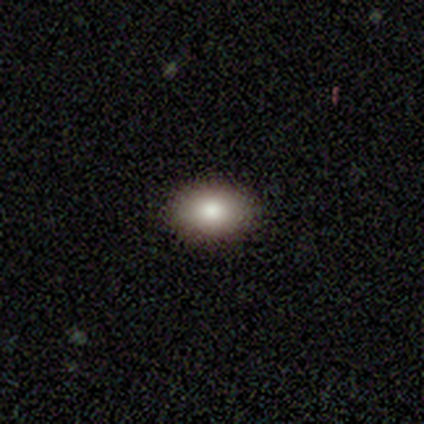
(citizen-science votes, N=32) smooth_or_featured: smooth (p=0.62) [alt: featured or disk p=0.19]
how_rounded: in between (p=0.95) [alt: round p=0.05]
merging: none (p=0.96) [alt: minor disturbance p=0.04]